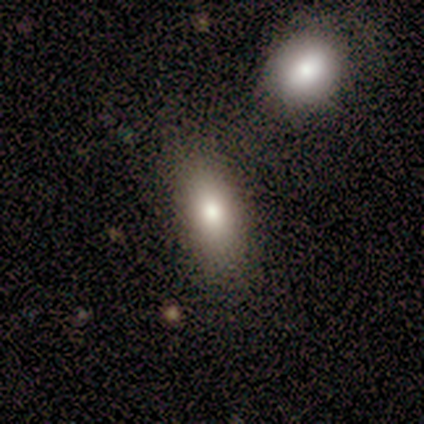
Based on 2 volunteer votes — Morphology: type=smooth (100%); roundness=in between (100%); merging=none (100%).